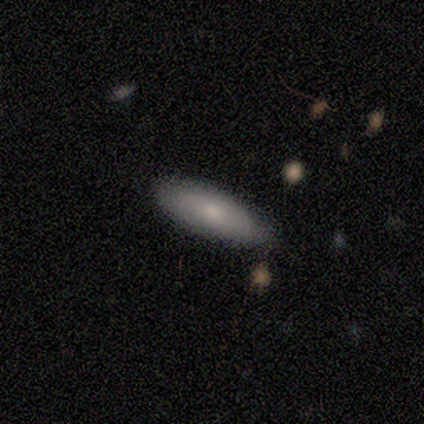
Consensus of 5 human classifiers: Q: Smooth or featured?
A: smooth (60%); runner-up: featured or disk (40%)
Q: How rounded?
A: in between (100%)
Q: Merging?
A: none (100%)